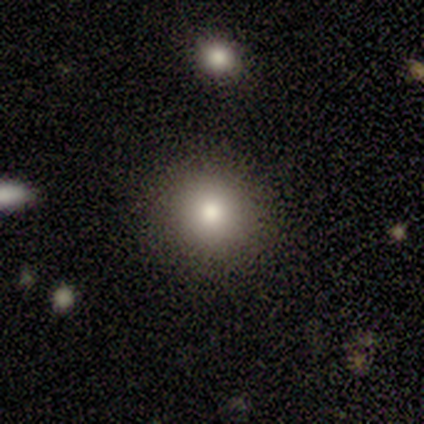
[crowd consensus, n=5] smooth-or-featured: smooth: 60% | featured or disk: 40% | star or artifact: 0%
  how-rounded: round: 67% | in between: 33% | cigar-shaped: 0%
  merging: none: 80% | major disturbance: 20% | minor disturbance: 0% | merger: 0%